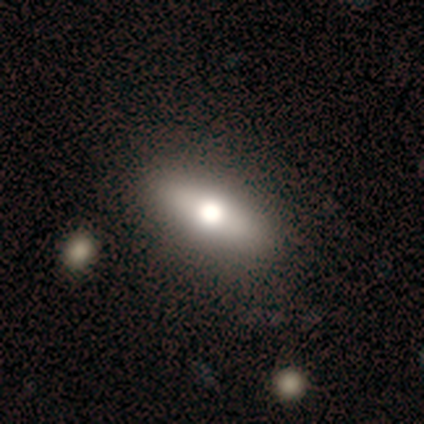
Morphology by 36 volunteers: A smooth galaxy with no disk features (67%) that is in between round and cigar-shaped (54%). Merging: none (79%).